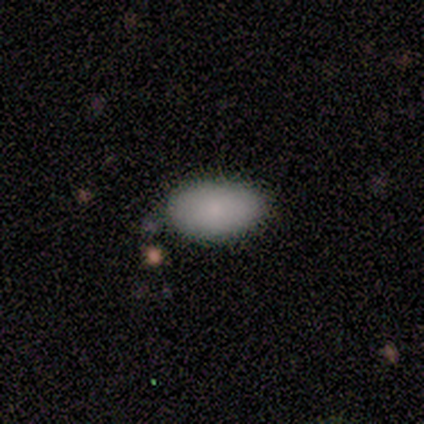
Q: Smooth or featured?
A: smooth (81%); runner-up: star or artifact (12%)
Q: How rounded?
A: in between (100%)
Q: Merging?
A: none (57%); runner-up: minor disturbance (43%)